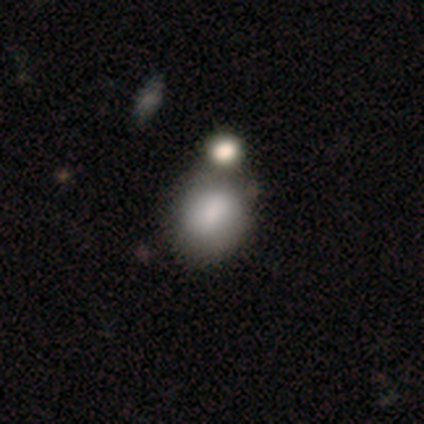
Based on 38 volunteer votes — smooth-or-featured: smooth: 74% | star or artifact: 16% | featured or disk: 11%
  how-rounded: in between: 50% | round: 46% | cigar-shaped: 4%
  merging: merger: 47% | none: 31% | minor disturbance: 3% | major disturbance: 0%